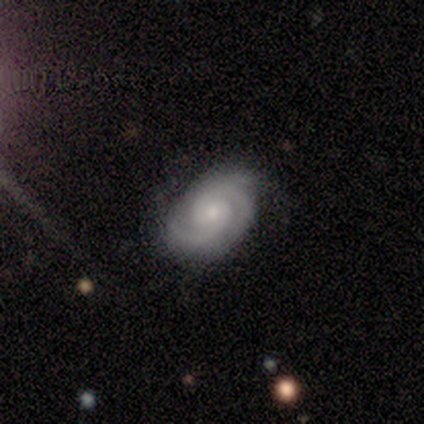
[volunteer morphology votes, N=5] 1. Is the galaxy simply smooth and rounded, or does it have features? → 100% featured or disk, 0% smooth, 0% star or artifact.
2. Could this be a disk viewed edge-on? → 100% no, 0% yes.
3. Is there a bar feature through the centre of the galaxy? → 60% no, 40% weak, 0% strong.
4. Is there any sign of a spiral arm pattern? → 100% yes, 0% no.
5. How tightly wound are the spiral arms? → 80% tight, 20% medium, 0% loose.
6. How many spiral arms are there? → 80% 2, 20% 3, 0% 1, 0% 4, 0% more than 4, 0% can't tell.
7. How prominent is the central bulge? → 100% small, 0% dominant, 0% large, 0% moderate, 0% none.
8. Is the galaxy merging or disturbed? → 60% none, 40% minor disturbance, 0% major disturbance, 0% merger.